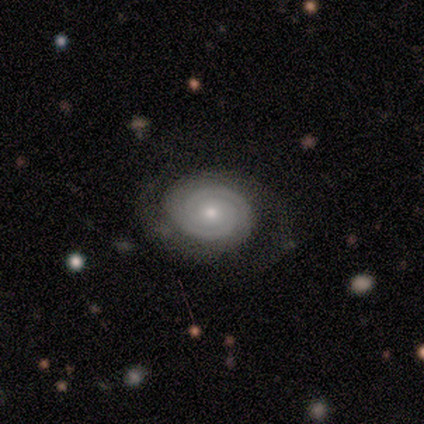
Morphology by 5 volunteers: Smooth or featured?
  - featured or disk: 100% *
  - smooth: 0%
  - star or artifact: 0%
Edge-on disk?
  - no: 100% *
  - yes: 0%
Bar?
  - no: 80% *
  - strong: 20%
  - weak: 0%
Spiral arms?
  - yes: 100% *
  - no: 0%
Spiral winding?
  - tight: 100% *
  - medium: 0%
  - loose: 0%
Spiral arm count?
  - 2: 100% *
  - 1: 0%
  - 3: 0%
  - 4: 0%
  - more than 4: 0%
  - can't tell: 0%
Bulge size?
  - moderate: 80% *
  - small: 20%
  - dominant: 0%
  - large: 0%
  - none: 0%
Merging?
  - none: 100% *
  - minor disturbance: 0%
  - major disturbance: 0%
  - merger: 0%